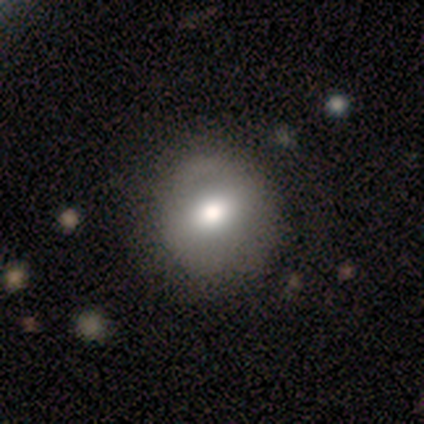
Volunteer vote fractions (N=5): smooth_or_featured: featured or disk (p=0.60) [alt: smooth p=0.40]
disk_edge_on: no (p=0.67) [alt: yes p=0.33]
bar: strong (p=0.50) [tied with: no p=0.50]
has_spiral_arms: no (p=1.00)
bulge_size: large (p=0.50) [tied with: moderate p=0.50]
merging: none (p=0.60) [alt: minor disturbance p=0.40]